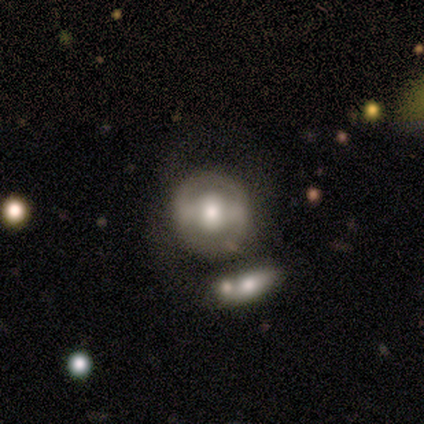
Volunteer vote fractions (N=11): Volunteers were most divided on "smooth or featured": featured or disk: 55%, smooth: 36%, star or artifact: 9%. More confident: edge-on disk — no (100%); bar — strong (67%); spiral arms — no (67%); merging — none (50%); bulge size — large (50%).